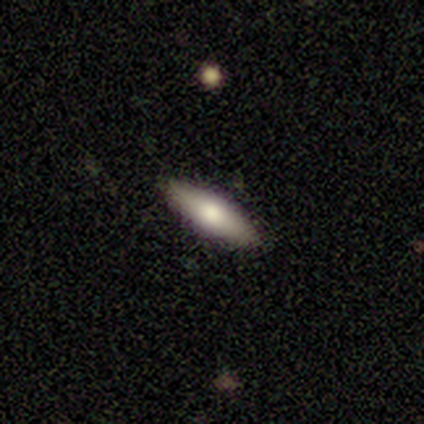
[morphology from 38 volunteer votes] Volunteers were most divided on "smooth or featured": featured or disk: 50%, smooth: 47%, star or artifact: 3%. More confident: merging — none (92%); edge-on disk — yes (84%); edge-on bulge — rounded (69%).